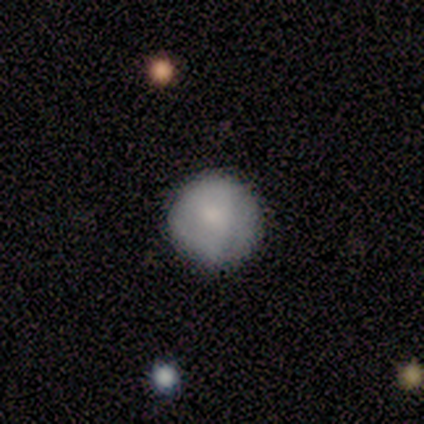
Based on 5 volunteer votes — Volunteers were most divided on "smooth or featured": smooth: 80%, featured or disk: 20%, star or artifact: 0%. More confident: how rounded — round (100%); merging — none (100%).